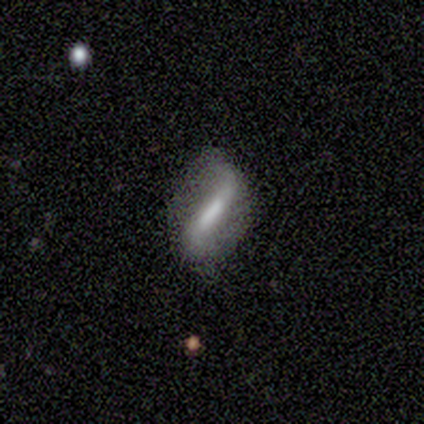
Smooth or featured?
  - featured or disk: 75% *
  - smooth: 25%
  - star or artifact: 0%
Edge-on disk?
  - no: 100% *
  - yes: 0%
Bar?
  - strong: 100% *
  - weak: 0%
  - no: 0%
Spiral arms?
  - yes: 67% *
  - no: 33%
Spiral winding?
  - loose: 100% *
  - tight: 0%
  - medium: 0%
Spiral arm count?
  - 1: 50% * (tied)
  - 2: 50% * (tied)
  - 3: 0%
  - 4: 0%
  - more than 4: 0%
  - can't tell: 0%
Bulge size?
  - large: 33% * (tied)
  - moderate: 33% * (tied)
  - none: 33% * (tied)
  - dominant: 0%
  - small: 0%
Merging?
  - none: 75% *
  - minor disturbance: 25%
  - major disturbance: 0%
  - merger: 0%